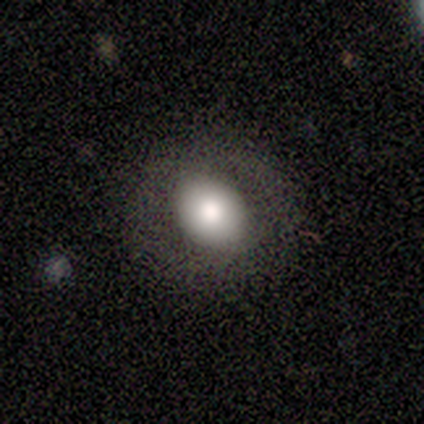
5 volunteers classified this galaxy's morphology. smooth 60%, featured or disk 40%, star or artifact 0%. Down the decision tree: how rounded — in between (100%); merging — none (80%).